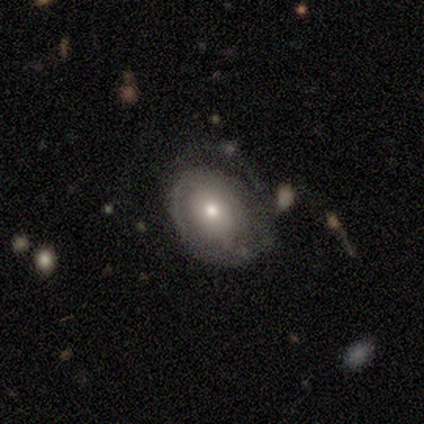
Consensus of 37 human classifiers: Smooth or featured: featured or disk — 57% (smooth — 38%)
Edge-on disk: no — 90% (yes — 10%)
Bar: no — 74% (weak — 16%)
Spiral arms: yes — 74% (no — 26%)
Spiral winding: tight — 71% (medium — 29%)
Spiral arm count: 2 — 36% (tied with can't tell — 36%)
Bulge size: moderate — 63% (small — 21%)
Merging: none — 46% (minor disturbance — 29%)